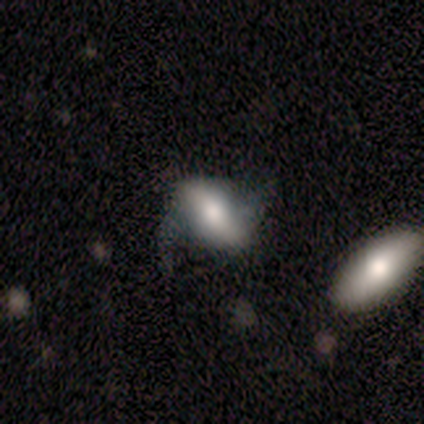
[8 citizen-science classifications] smooth-or-featured: featured or disk: 88% | smooth: 12% | star or artifact: 0%
  disk-edge-on: no: 86% | yes: 14%
    bar: strong: 50% | weak: 33% | no: 17%
    has-spiral-arms: yes: 67% | no: 33%
      spiral-winding: loose: 100% | tight: 0% | medium: 0%
      spiral-arm-count: 2: 100% | 1: 0% | 3: 0% | 4: 0% | more than 4: 0% | can't tell: 0%
    bulge-size: moderate: 67% | dominant: 17% | large: 17% | small: 0% | none: 0%
  merging: none: 62% | minor disturbance: 25% | major disturbance: 12% | merger: 0%